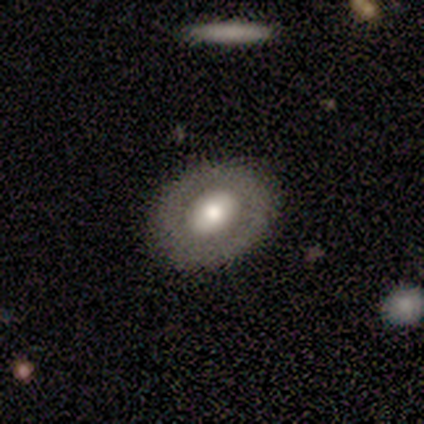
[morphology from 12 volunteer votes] smooth-or-featured: featured or disk: 83% | smooth: 8% | star or artifact: 8%
  disk-edge-on: no: 100% | yes: 0%
    bar: weak: 50% (tied) | no: 50% (tied) | strong: 0%
    has-spiral-arms: no: 100% | yes: 0%
    bulge-size: moderate: 70% | large: 30% | dominant: 0% | small: 0% | none: 0%
  merging: none: 91% | minor disturbance: 9% | major disturbance: 0% | merger: 0%